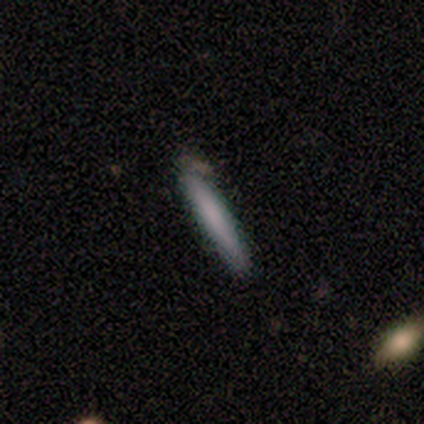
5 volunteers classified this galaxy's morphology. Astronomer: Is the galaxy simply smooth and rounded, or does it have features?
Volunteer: smooth — 80%.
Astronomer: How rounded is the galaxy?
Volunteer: cigar-shaped — 100%.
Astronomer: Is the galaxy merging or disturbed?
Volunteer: none — 80%.